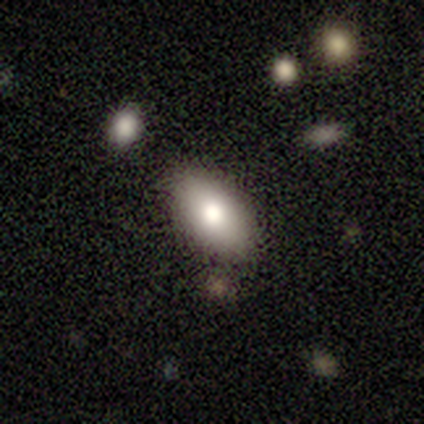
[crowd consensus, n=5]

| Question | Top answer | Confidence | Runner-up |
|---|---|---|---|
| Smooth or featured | smooth | 100% | — |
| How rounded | in between | 100% | — |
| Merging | none | 80% | minor disturbance (20%) |